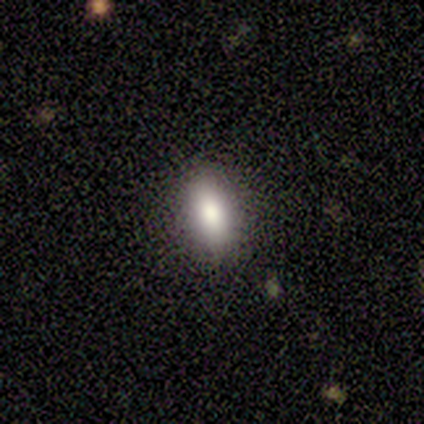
Smooth or featured? 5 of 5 (100%) said smooth. How rounded? 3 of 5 (60%) said in between. Merging? 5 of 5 (100%) said none.